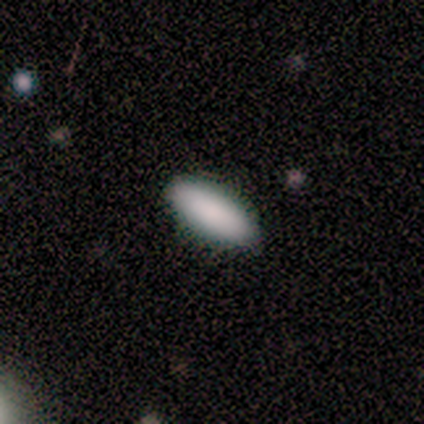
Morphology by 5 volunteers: Overall: smooth (100%). How rounded: in between (100%). Merging: none (100%).